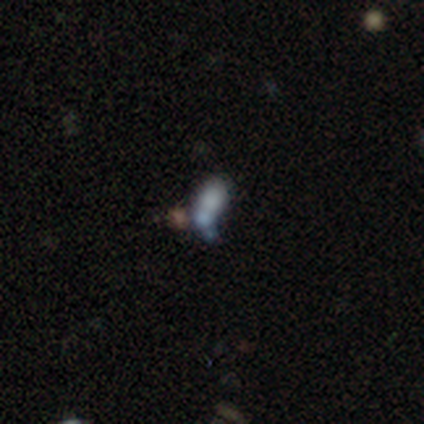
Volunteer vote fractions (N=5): Smooth or featured? star or artifact (60%)